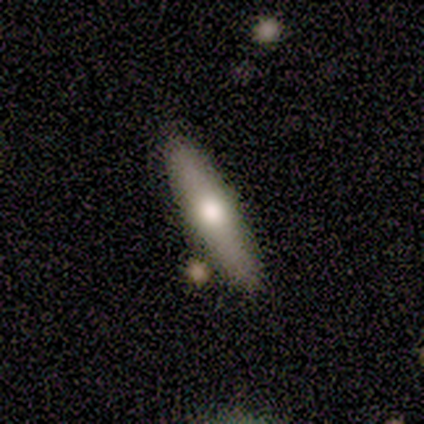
A smooth galaxy with no disk features (100%) that is in between round and cigar-shaped (50%, tied with cigar-shaped).

Vote fractions:
- Smooth or featured? smooth: 100% / featured or disk: 0% / star or artifact: 0%
- How rounded? in between: 50% (tied) / cigar-shaped: 50% (tied) / round: 0%
- Merging? none: 75% / merger: 25% / minor disturbance: 0% / major disturbance: 0%